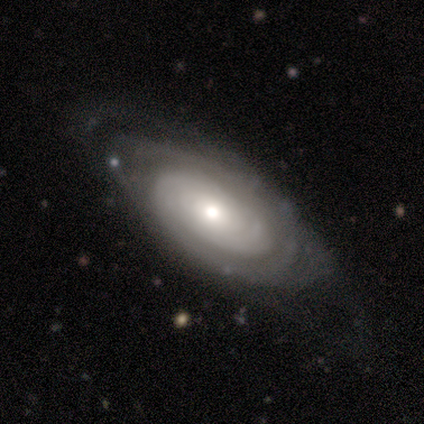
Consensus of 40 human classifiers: Q: Smooth or featured?
A: featured or disk (88%); runner-up: smooth (10%)
Q: Edge-on disk?
A: no (89%); runner-up: yes (11%)
Q: Bar?
A: no (94%); runner-up: strong (3%)
Q: Spiral arms?
A: yes (81%); runner-up: no (19%)
Q: Spiral winding?
A: tight (72%); runner-up: loose (16%)
Q: Spiral arm count?
A: can't tell (60%); runner-up: 2 (32%)
Q: Bulge size?
A: moderate (52%); runner-up: small (35%)
Q: Merging?
A: none (72%); runner-up: major disturbance (15%)